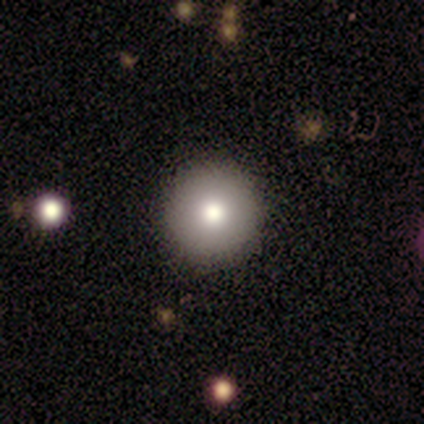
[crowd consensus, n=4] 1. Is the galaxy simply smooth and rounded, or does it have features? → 50% smooth (tied), 50% star or artifact (tied), 0% featured or disk.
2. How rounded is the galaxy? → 100% round, 0% in between, 0% cigar-shaped.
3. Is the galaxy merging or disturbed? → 100% none, 0% minor disturbance, 0% major disturbance, 0% merger.